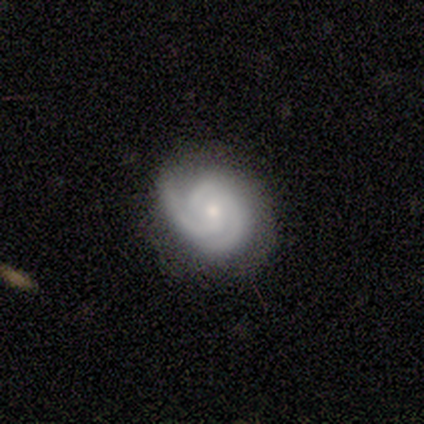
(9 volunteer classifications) A featured or disk galaxy (89%) with no bar (75%), 2 (75%) tight (75%) spiral arms (100%) and a small central bulge (88%). Merging: none (67%).